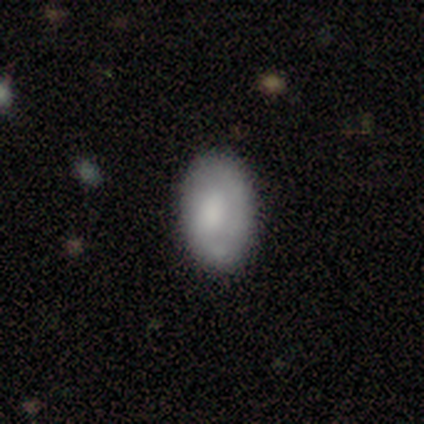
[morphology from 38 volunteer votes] type=smooth (63%); roundness=in between (100%); merging=none (65%).